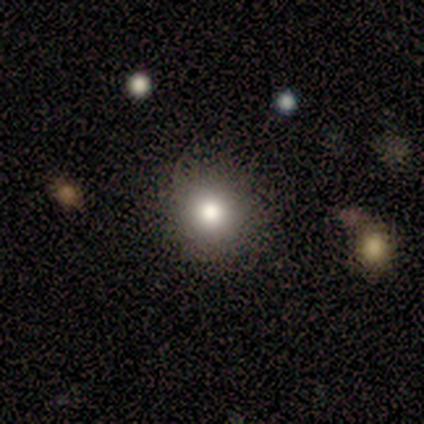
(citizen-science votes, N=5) Q: Smooth or featured?
A: smooth (100%)
Q: How rounded?
A: round (80%); runner-up: in between (20%)
Q: Merging?
A: none (80%); runner-up: merger (20%)